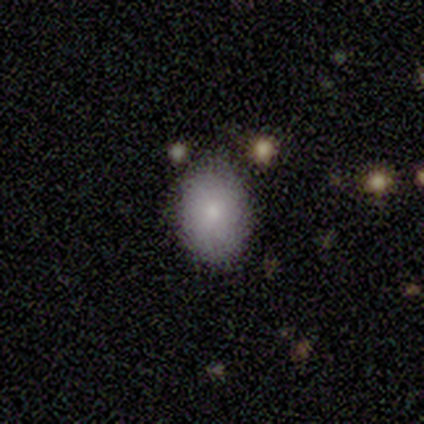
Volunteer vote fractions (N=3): Morphology: type=smooth (100%); roundness=in between (67%); merging=none (67%).